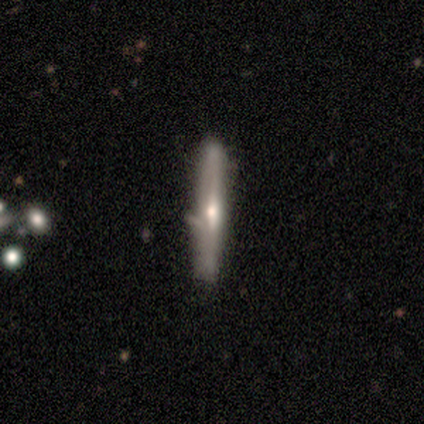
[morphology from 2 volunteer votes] smooth 100%, featured or disk 0%, star or artifact 0%. Down the decision tree: how rounded — cigar-shaped (100%); merging — none (100%).